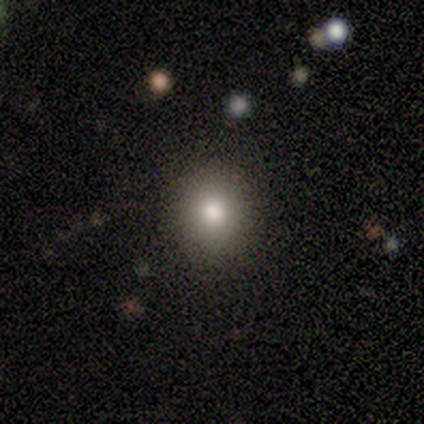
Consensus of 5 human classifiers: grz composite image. It shows a smooth galaxy with no disk features (100%) that is round (100%). Merging: none (100%).